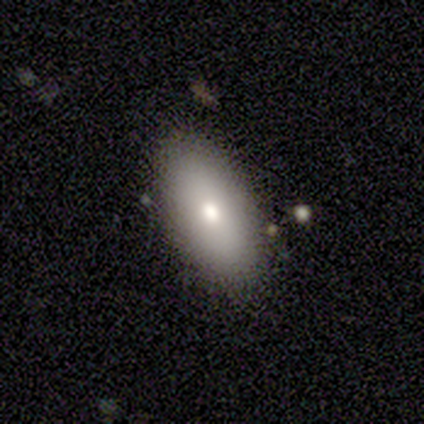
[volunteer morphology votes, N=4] smooth_or_featured: smooth (p=1.00)
how_rounded: in between (p=0.75) [alt: round p=0.25]
merging: none (p=1.00)